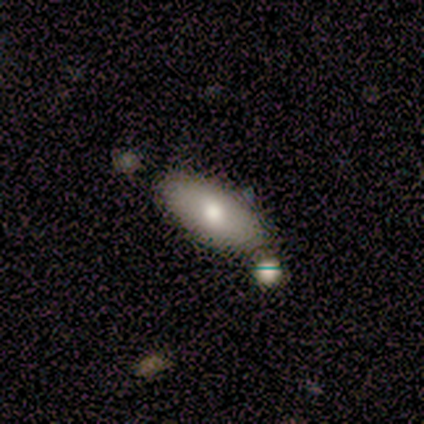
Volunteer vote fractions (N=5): smooth-or-featured: smooth: 100% | featured or disk: 0% | star or artifact: 0%
  how-rounded: in between: 100% | round: 0% | cigar-shaped: 0%
  merging: none: 60% | minor disturbance: 20% | merger: 20% | major disturbance: 0%